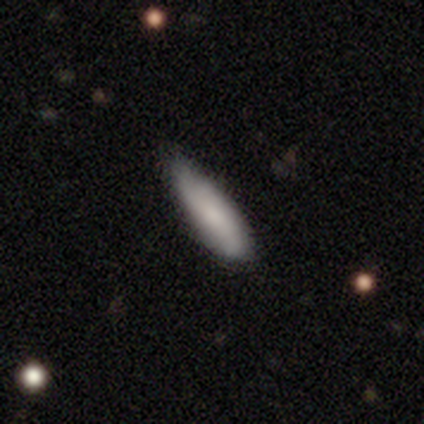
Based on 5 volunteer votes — Morphology: type=smooth (80%); roundness=in between (50%, tied with cigar-shaped); merging=none (60%).